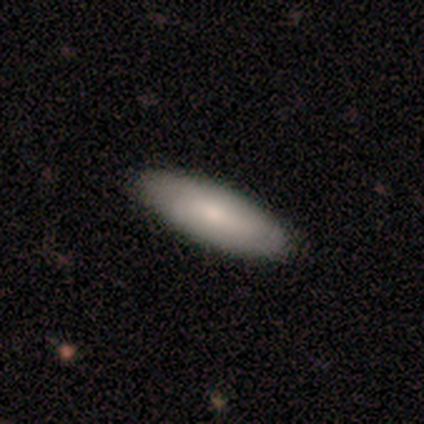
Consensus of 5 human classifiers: Overall: smooth (100%). How rounded: in between (60%; cigar-shaped 40%). Merging: none (80%).